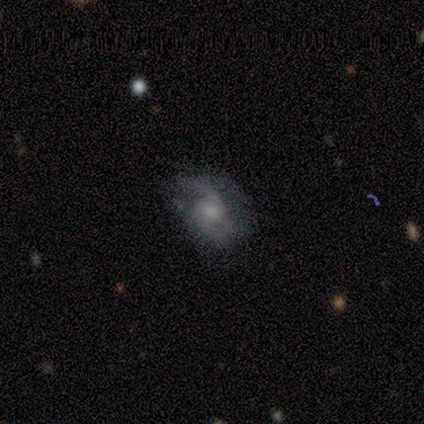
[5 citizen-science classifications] Smooth or featured? 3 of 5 (60%) said featured or disk. Edge-on disk? 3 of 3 (100%) said no. Bar? 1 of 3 (33%, tied with weak and no) said strong. Spiral arms? 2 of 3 (67%) said yes. Spiral winding? 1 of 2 (50%, tied with medium) said tight. Spiral arm count? 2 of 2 (100%) said 2. Bulge size? 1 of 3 (33%, tied with small and none) said moderate. Merging? 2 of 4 (50%) said none.